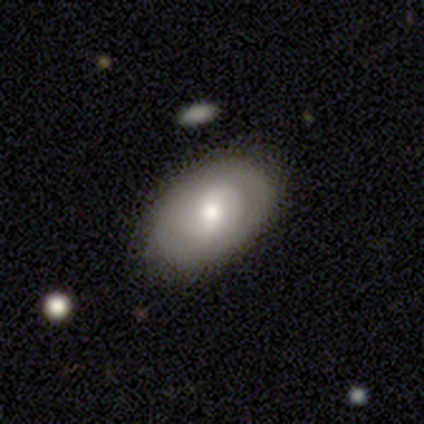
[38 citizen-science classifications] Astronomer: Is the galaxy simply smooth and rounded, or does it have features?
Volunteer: smooth — 61%.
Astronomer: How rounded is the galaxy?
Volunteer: in between — 100%.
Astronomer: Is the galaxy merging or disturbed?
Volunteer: none — 81%.